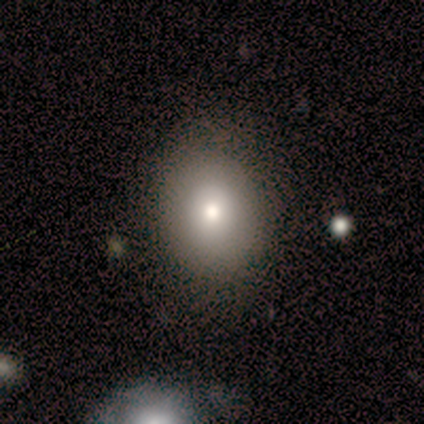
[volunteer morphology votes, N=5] This is likely a smooth galaxy (60%). How rounded: likely round (67%). Merging: clearly none (100%).